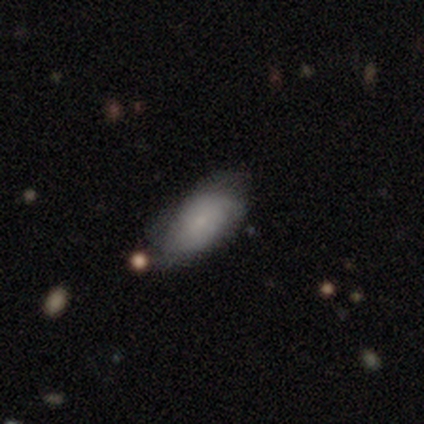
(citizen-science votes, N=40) A smooth galaxy with no disk features (50%, tied with featured or disk) that is in between round and cigar-shaped (95%). Merging: none (57%).